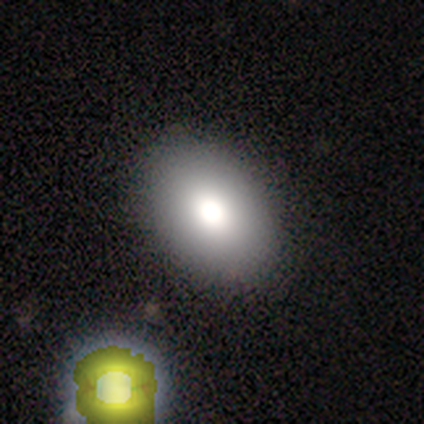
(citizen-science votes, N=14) Smooth or featured? 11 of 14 (79%) said smooth. How rounded? 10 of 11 (91%) said in between. Merging? 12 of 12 (100%) said none.